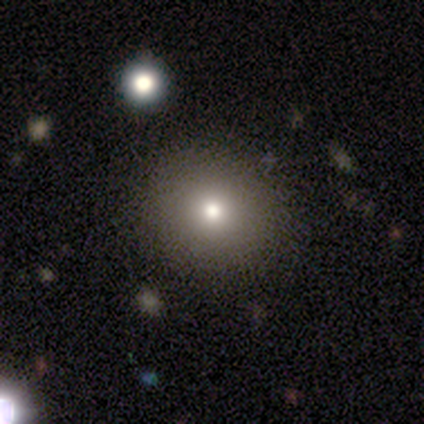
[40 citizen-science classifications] This appears to be a smooth galaxy with no disk features (50%) that is round (95%). Merging: none (76%).